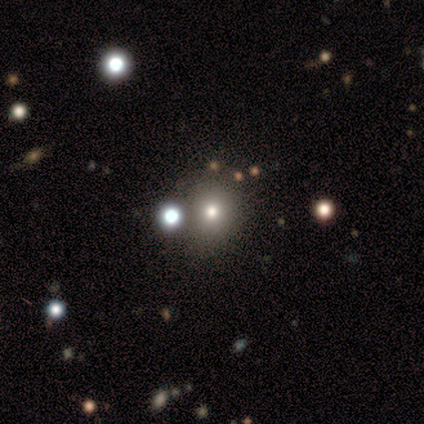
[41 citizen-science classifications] Morphology: type=smooth (68%); roundness=round (86%); merging=none (76%).